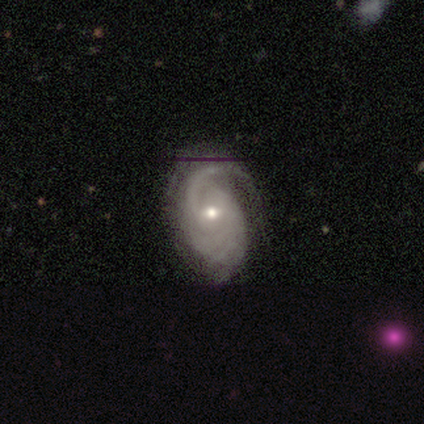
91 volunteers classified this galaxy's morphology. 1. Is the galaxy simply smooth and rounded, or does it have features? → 92% featured or disk, 7% star or artifact, 1% smooth.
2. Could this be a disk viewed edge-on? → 96% no, 4% yes.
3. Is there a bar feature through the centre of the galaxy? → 53% weak, 42% no, 5% strong.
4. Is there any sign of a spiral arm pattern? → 99% yes, 1% no.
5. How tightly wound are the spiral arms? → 48% tight, 41% medium, 11% loose.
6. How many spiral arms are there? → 28% 2 (tied), 28% can't tell (tied), 20% 1, 15% 3, 8% 4, 2% more than 4.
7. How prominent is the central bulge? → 58% small, 42% moderate, 0% dominant, 0% large, 0% none.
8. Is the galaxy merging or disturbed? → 68% none, 16% major disturbance, 15% minor disturbance, 0% merger.